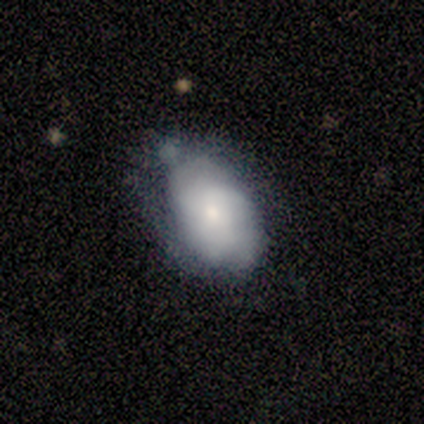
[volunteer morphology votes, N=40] Smooth or featured? 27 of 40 (68%) said smooth. How rounded? 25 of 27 (93%) said in between. Merging? 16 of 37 (43%) said none.